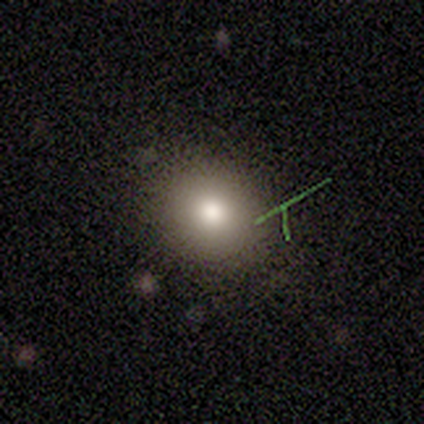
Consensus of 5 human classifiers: A smooth galaxy with no disk features (100%) that is round (60%). Merging: none (100%).